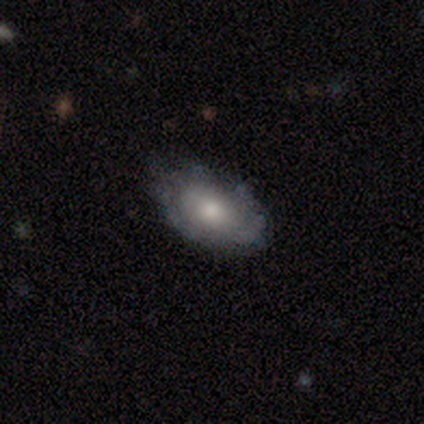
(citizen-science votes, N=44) Volunteers were most divided on "merging": none: 49%, minor disturbance: 38%, major disturbance: 14%, merger: 0%. More confident: how rounded — in between (78%); smooth or featured — smooth (61%).